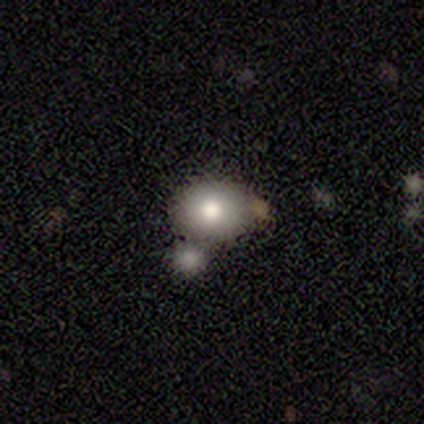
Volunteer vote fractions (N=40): Smooth or featured: smooth — 72% (star or artifact — 15%)
How rounded: in between — 52% (round — 48%)
Merging: none — 56% (merger — 32%)